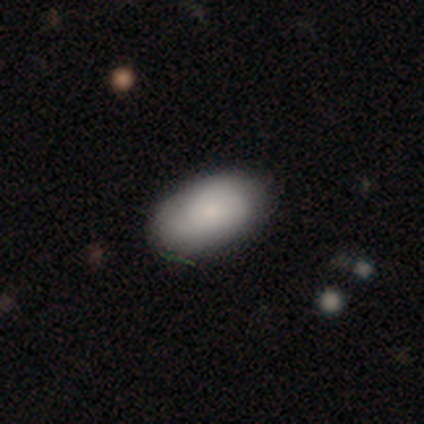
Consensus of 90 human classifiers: Volunteers were most divided on "merging": none: 76%, minor disturbance: 22%, major disturbance: 1%, merger: 1%. More confident: how rounded — in between (96%); smooth or featured — smooth (82%).